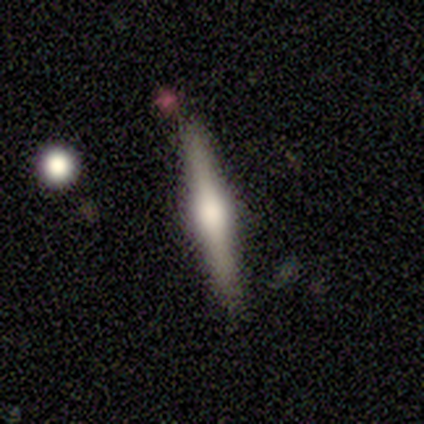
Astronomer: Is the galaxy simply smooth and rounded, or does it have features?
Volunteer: featured or disk — 100%.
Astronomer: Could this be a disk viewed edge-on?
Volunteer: yes — 100%.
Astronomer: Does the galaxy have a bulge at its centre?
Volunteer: rounded — 100%.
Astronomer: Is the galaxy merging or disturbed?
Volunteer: none — 100%.